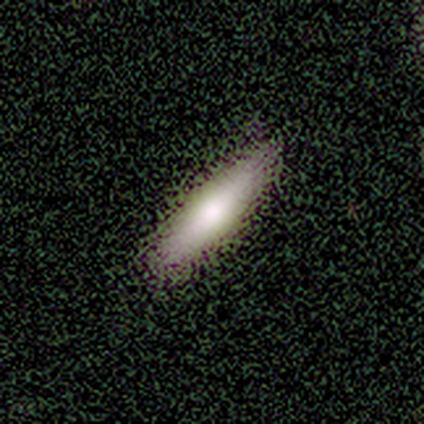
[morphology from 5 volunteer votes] smooth 60%, featured or disk 40%, star or artifact 0%. Down the decision tree: how rounded — in between (67%); merging — none (80%).